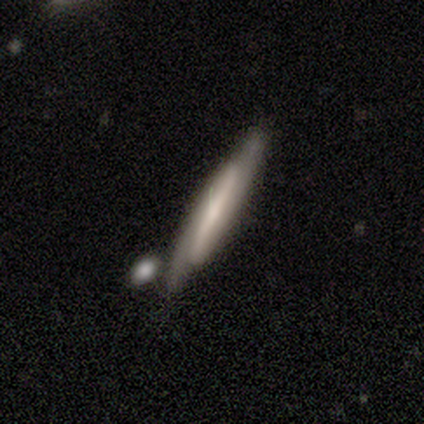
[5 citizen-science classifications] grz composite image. It shows a featured or disk galaxy (60%) viewed edge-on (67%) with no central bulge (100%). Merging: none (80%).